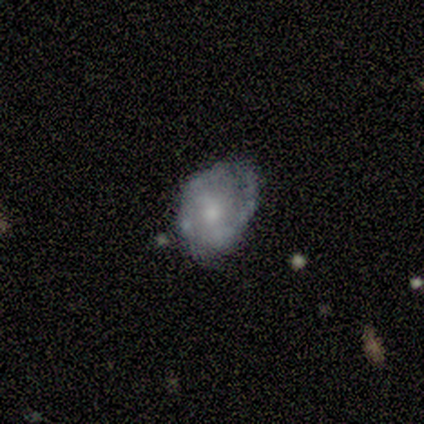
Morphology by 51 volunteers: A featured or disk galaxy (73%) with no bar (47%), 2 (61%) tight (52%) spiral arms (64%) and a moderate central bulge (56%). Merging: none (47%).